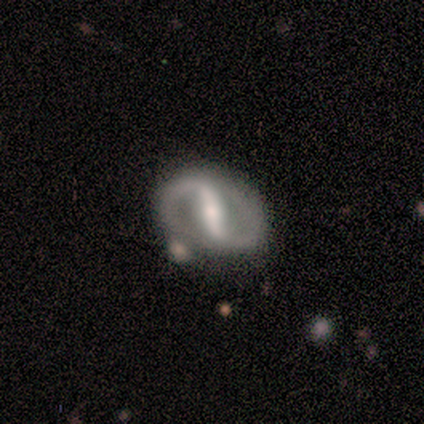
A featured or disk galaxy (100%) with a strong bar (83%), 2 (100%) tight (50%) spiral arms (100%) and a small central bulge (50%). Merging: none (83%).